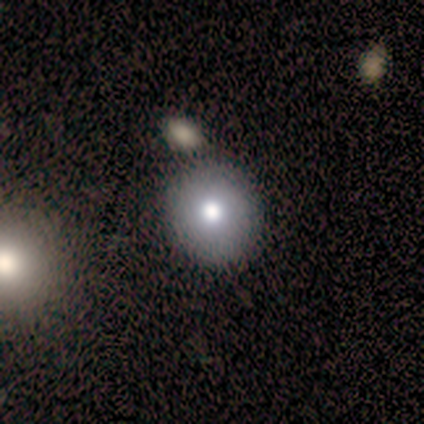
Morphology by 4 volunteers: A smooth galaxy with no disk features (75%) that is round (100%).

Vote fractions:
- Smooth or featured? smooth: 75% / star or artifact: 25% / featured or disk: 0%
- How rounded? round: 100% / in between: 0% / cigar-shaped: 0%
- Merging? none: 67% / minor disturbance: 33% / major disturbance: 0% / merger: 0%